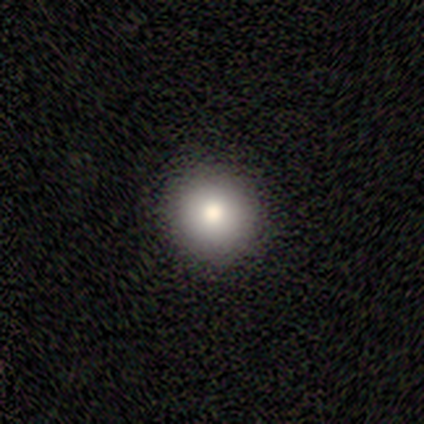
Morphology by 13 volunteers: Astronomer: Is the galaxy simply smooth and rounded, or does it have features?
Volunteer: smooth — 69%.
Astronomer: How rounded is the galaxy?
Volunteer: round — 89%.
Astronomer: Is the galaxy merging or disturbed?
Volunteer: none — 100%.